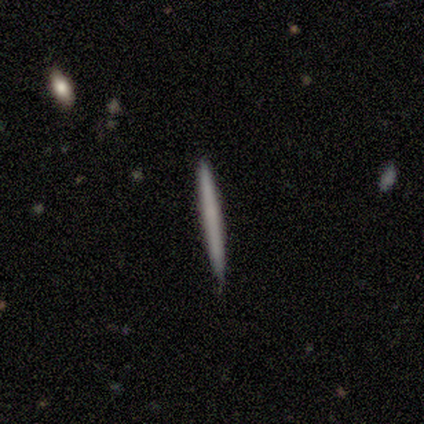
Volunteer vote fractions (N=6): smooth-or-featured: featured or disk: 67% | smooth: 33% | star or artifact: 0%
  disk-edge-on: yes: 100% | no: 0%
    edge-on-bulge: none: 100% | boxy: 0% | rounded: 0%
  merging: none: 67% | minor disturbance: 33% | major disturbance: 0% | merger: 0%